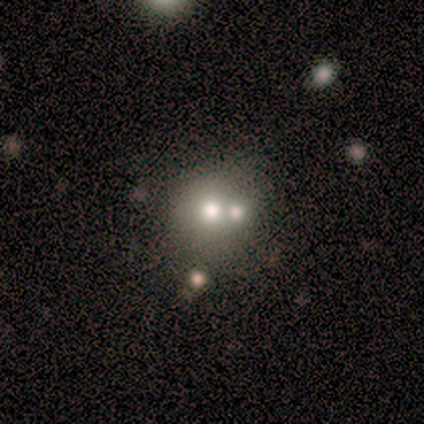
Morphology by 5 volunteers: A featured or disk galaxy (80%) with no bar (67%), no spiral arms (100%) and a large central bulge (67%). Merging: merger (60%).